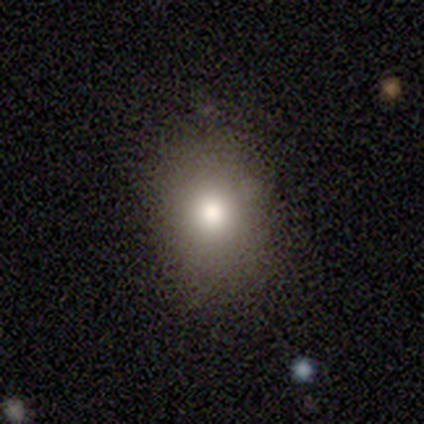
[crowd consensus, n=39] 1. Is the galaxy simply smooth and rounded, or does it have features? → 82% smooth, 10% star or artifact, 8% featured or disk.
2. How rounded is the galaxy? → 53% in between, 47% round, 0% cigar-shaped.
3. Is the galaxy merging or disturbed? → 66% none, 6% major disturbance, 3% minor disturbance, 3% merger.